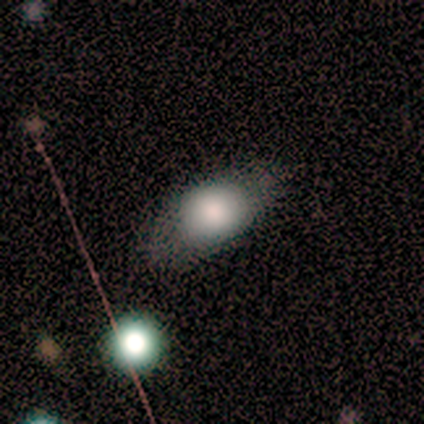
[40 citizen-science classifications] Q: Smooth or featured?
A: smooth (80%); runner-up: featured or disk (15%)
Q: How rounded?
A: in between (53%); runner-up: round (38%)
Q: Merging?
A: none (61%); runner-up: minor disturbance (21%)